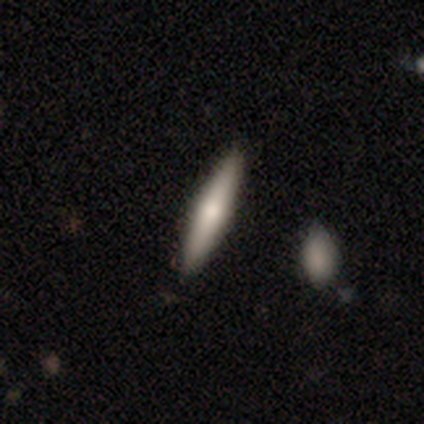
This is clearly a smooth galaxy (80%). How rounded: clearly cigar-shaped (100%). Merging: clearly none (80%).